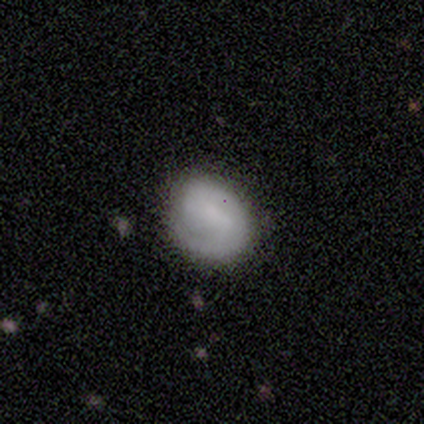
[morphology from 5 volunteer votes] This is likely a featured or disk galaxy (60%). It is clearly not viewed edge-on (100%). Bar: likely no (67%). Spiral arm pattern: likely yes (67%). Spiral arm count: clearly 1 (100%). Spiral winding: possibly tight (50%, tied with medium). Central bulge: likely none (67%). Merging: clearly none (100%).